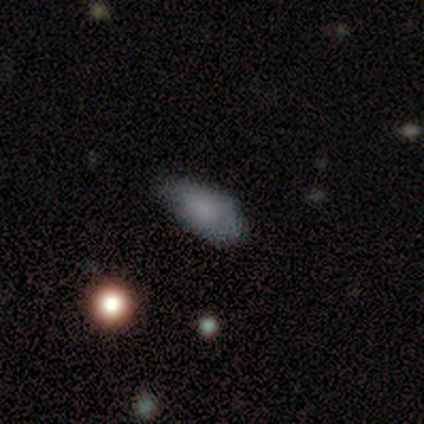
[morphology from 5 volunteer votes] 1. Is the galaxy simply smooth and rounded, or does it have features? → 80% smooth, 20% featured or disk, 0% star or artifact.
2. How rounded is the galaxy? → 75% in between, 25% round, 0% cigar-shaped.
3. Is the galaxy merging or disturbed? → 40% none (tied), 40% minor disturbance (tied), 20% major disturbance, 0% merger.